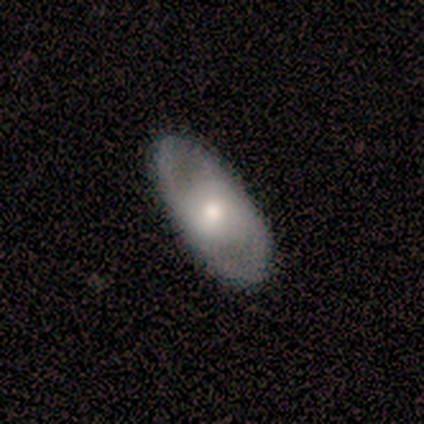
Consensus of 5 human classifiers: A smooth galaxy with no disk features (80%) that is in between round and cigar-shaped (75%). Merging: none (80%).